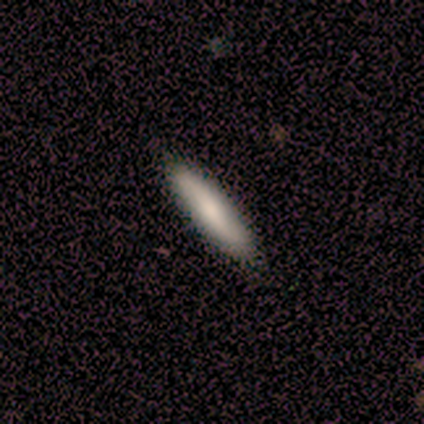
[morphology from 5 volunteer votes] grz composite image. It shows a smooth galaxy with no disk features (100%) that is cigar-shaped (100%). Merging: none (100%).